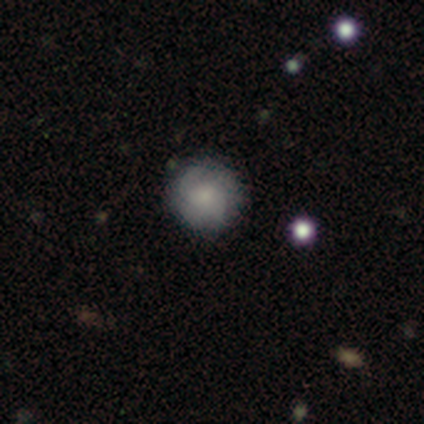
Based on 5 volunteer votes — Q: Smooth or featured?
A: featured or disk (100%)
Q: Edge-on disk?
A: no (100%)
Q: Bar?
A: no (80%); runner-up: weak (20%)
Q: Spiral arms?
A: yes (60%); runner-up: no (40%)
Q: Spiral winding?
A: tight (33%); tied with: medium (33%); loose (33%)
Q: Spiral arm count?
A: 2 (67%); runner-up: 3 (33%)
Q: Bulge size?
A: moderate (40%); tied with: small (40%)
Q: Merging?
A: none (100%)